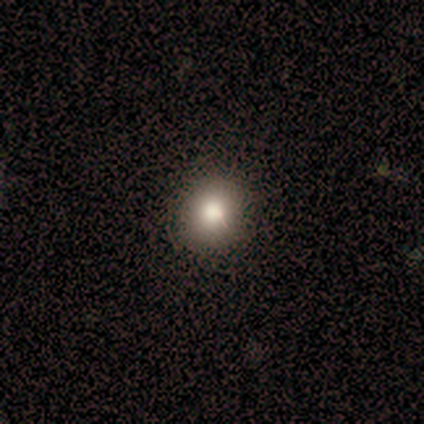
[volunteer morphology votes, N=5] Smooth or featured? smooth (80%)
How rounded? round (75%)
Merging? none (75%)